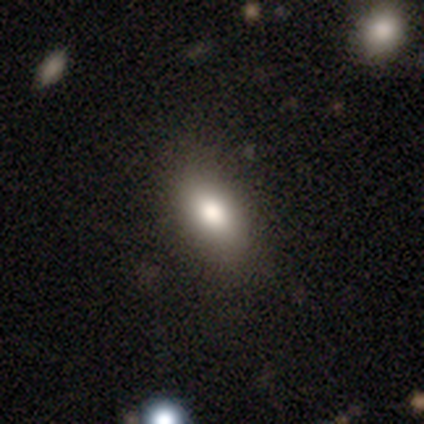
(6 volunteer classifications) Q: Smooth or featured?
A: smooth (83%); runner-up: star or artifact (17%)
Q: How rounded?
A: in between (100%)
Q: Merging?
A: none (80%); runner-up: major disturbance (20%)